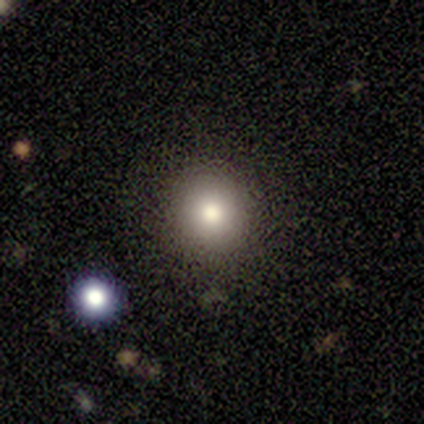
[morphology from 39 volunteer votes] Smooth or featured? 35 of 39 (90%) said smooth. How rounded? 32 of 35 (91%) said round. Merging? 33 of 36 (92%) said none.